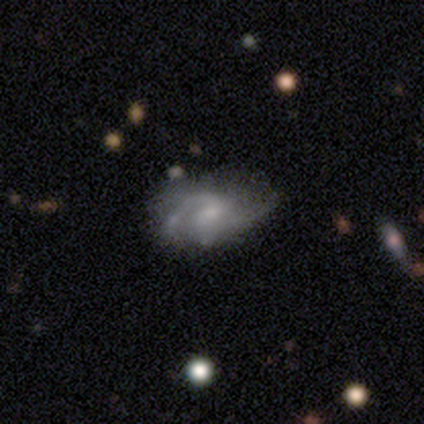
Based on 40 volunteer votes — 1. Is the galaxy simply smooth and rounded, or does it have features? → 90% featured or disk, 10% smooth, 0% star or artifact.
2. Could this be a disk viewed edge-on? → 97% no, 3% yes.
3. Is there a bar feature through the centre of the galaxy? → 66% no, 31% weak, 3% strong.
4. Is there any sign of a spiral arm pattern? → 91% yes, 9% no.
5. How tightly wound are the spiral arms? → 38% tight (tied), 38% medium (tied), 25% loose.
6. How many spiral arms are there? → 53% 2, 19% 1, 16% can't tell, 12% 3, 0% 4, 0% more than 4.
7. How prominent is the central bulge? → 49% small, 34% moderate, 14% none, 3% large, 0% dominant.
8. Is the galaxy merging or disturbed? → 45% none, 18% minor disturbance, 10% major disturbance, 10% merger.